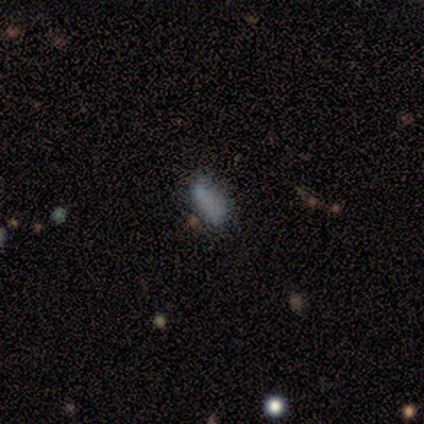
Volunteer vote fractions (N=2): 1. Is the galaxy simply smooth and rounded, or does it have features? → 100% smooth, 0% featured or disk, 0% star or artifact.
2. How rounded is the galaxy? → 100% in between, 0% round, 0% cigar-shaped.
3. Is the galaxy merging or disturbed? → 100% none, 0% minor disturbance, 0% major disturbance, 0% merger.